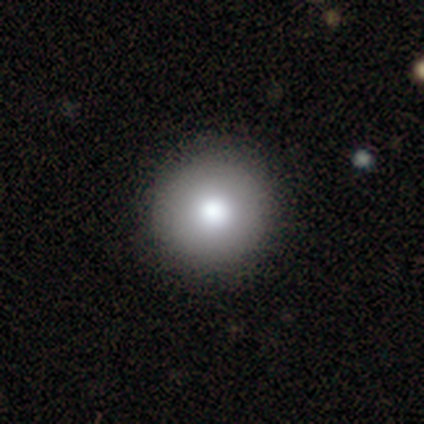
Q: Smooth or featured?
A: smooth (84%); runner-up: featured or disk (8%)
Q: How rounded?
A: round (97%); runner-up: in between (3%)
Q: Merging?
A: none (97%); runner-up: merger (3%)